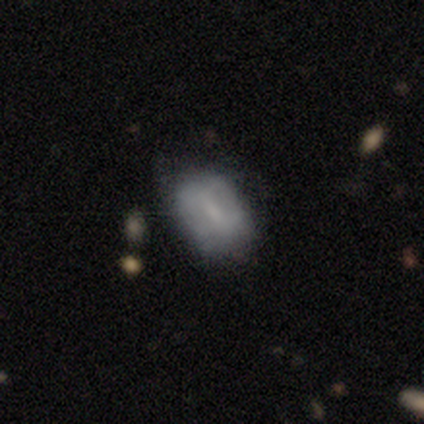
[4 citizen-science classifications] This appears to be a smooth galaxy with no disk features (50%, tied with featured or disk) that is in between round and cigar-shaped (100%). Merging: minor disturbance (75%).